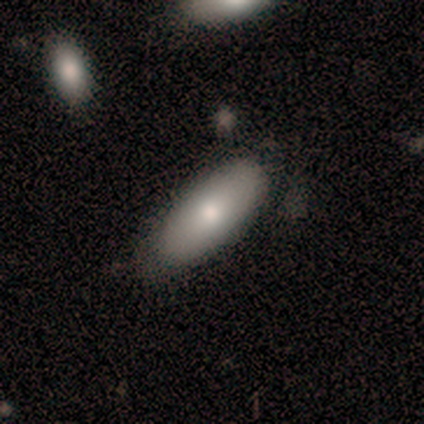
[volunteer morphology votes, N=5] Smooth or featured? smooth (100%)
How rounded? in between (80%)
Merging? none (80%)